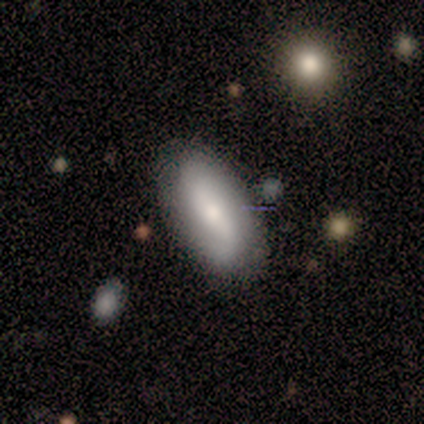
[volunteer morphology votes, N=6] Overall: featured or disk (67%; smooth 33%). Edge-on disk: no (100%). Bar: weak (75%). Spiral arms: yes (75%). Spiral arm count: 2 (100%). Spiral winding: loose (67%; medium 33%). Bulge size: small (75%). Merging: none (83%).